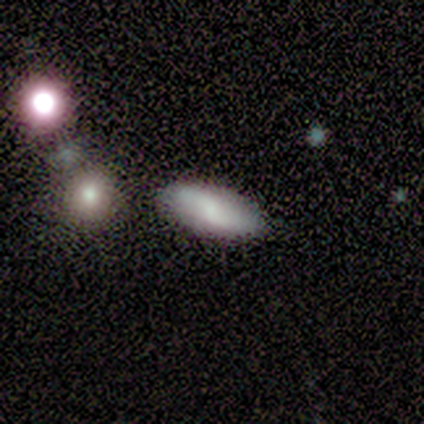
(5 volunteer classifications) Smooth or featured? 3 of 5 (60%) said featured or disk. Edge-on disk? 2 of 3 (67%) said no. Bar? 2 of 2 (100%) said no. Spiral arms? 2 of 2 (100%) said yes. Spiral winding? 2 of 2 (100%) said tight. Spiral arm count? 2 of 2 (100%) said 2. Bulge size? 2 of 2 (100%) said small. Merging? 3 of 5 (60%) said none.